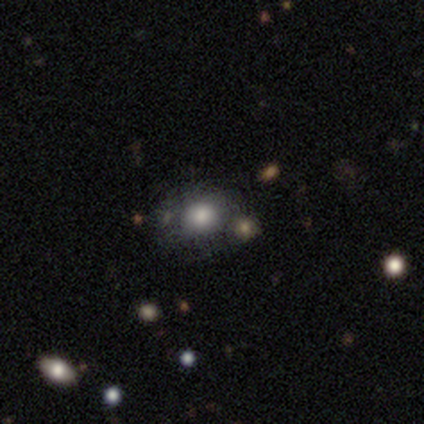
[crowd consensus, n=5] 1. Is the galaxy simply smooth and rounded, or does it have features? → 80% smooth, 20% featured or disk, 0% star or artifact.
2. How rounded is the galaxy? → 100% round, 0% in between, 0% cigar-shaped.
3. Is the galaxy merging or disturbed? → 80% none, 20% major disturbance, 0% minor disturbance, 0% merger.